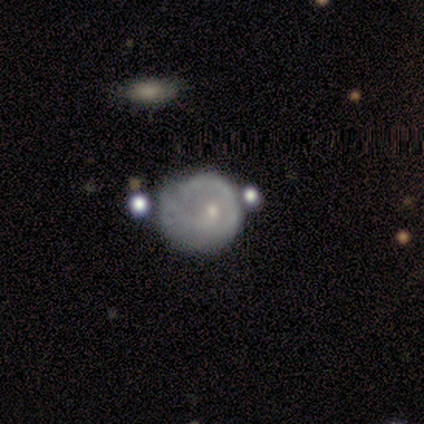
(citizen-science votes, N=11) Smooth or featured: smooth — 64% (featured or disk — 36%)
How rounded: round — 86% (in between — 14%)
Merging: none — 55% (major disturbance — 27%)